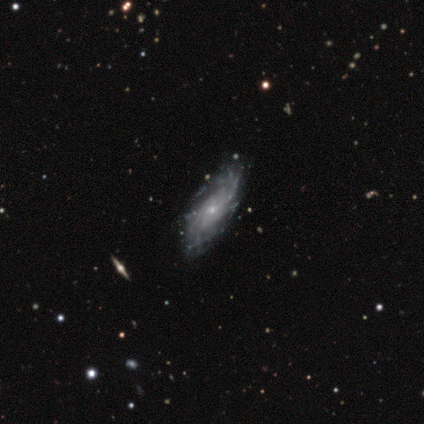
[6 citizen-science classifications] featured or disk 83%, smooth 17%, star or artifact 0%. Down the decision tree: edge-on disk — no (100%); bar — no (60%); spiral arms — yes (100%); spiral arm count — can't tell (60%); spiral winding — tight (60%); bulge size — small (80%); merging — none (50%, tied with minor disturbance).